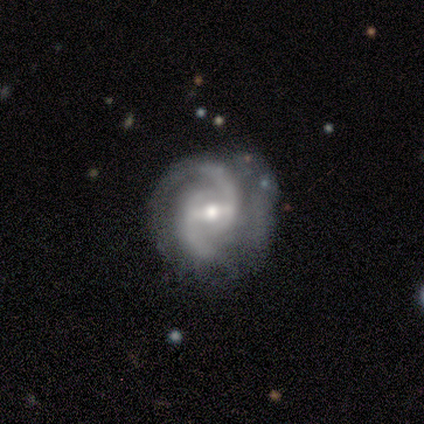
Morphology: type=featured or disk (100%); edge-on=no (80%); bar=strong (75%); spiral arms=yes (100%); winding=tight (50%, tied with medium); arm count=2 (100%); bulge=moderate (50%, tied with small); merging=minor disturbance (40%, tied with major disturbance).